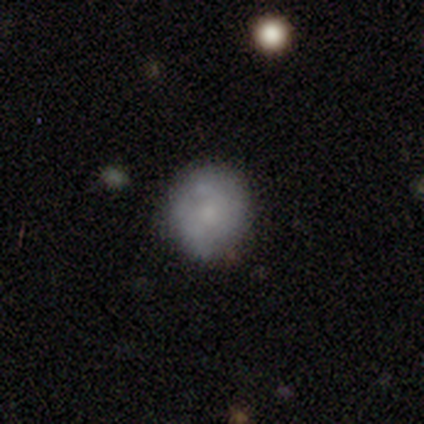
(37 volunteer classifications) smooth 68%, featured or disk 30%, star or artifact 3%. Down the decision tree: how rounded — round (88%); merging — none (75%).